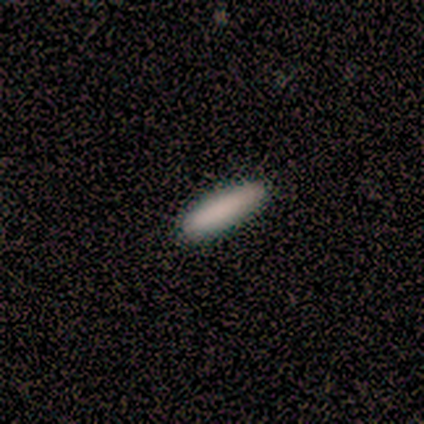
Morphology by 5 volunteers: smooth_or_featured: smooth (p=0.80) [alt: featured or disk p=0.20]
how_rounded: cigar-shaped (p=0.75) [alt: in between p=0.25]
merging: none (p=1.00)